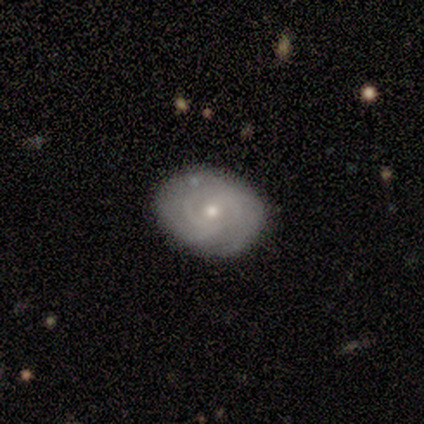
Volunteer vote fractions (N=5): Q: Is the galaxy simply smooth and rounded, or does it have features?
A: featured or disk — 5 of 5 (100%).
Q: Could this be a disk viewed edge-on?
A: no — 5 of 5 (100%).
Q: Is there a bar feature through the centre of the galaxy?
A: no — 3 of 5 (60%).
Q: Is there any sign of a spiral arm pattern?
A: yes — 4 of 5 (80%).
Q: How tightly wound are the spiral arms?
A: tight — 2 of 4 (50%).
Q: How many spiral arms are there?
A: can't tell — 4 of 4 (100%).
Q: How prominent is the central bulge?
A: small — 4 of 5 (80%).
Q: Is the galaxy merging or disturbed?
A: none — 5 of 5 (100%).